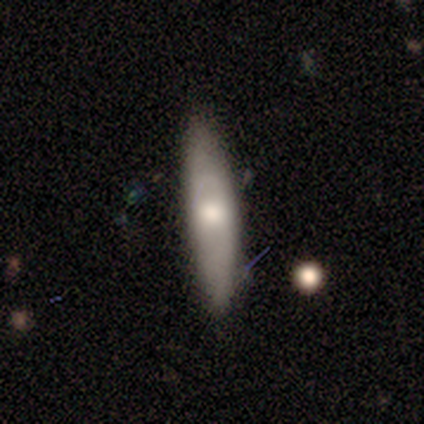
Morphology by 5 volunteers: Smooth or featured? 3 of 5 (60%) said smooth. How rounded? 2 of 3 (67%) said cigar-shaped. Merging? 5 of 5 (100%) said none.